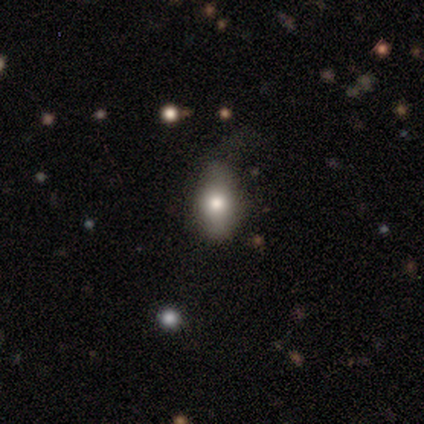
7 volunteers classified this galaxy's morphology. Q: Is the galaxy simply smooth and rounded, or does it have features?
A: smooth — 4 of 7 (57%).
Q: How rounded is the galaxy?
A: in between — 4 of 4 (100%).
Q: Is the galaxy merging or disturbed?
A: minor disturbance — 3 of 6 (50%).